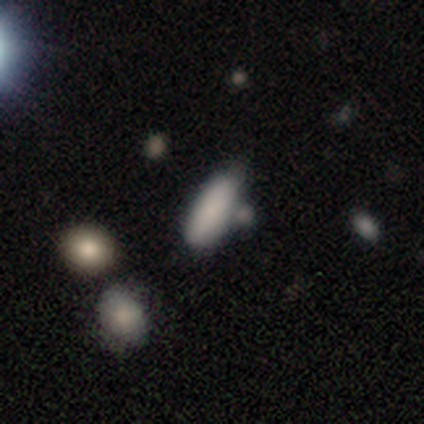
A smooth galaxy with no disk features (80%) that is in between round and cigar-shaped (75%).

Vote fractions:
- Smooth or featured? smooth: 80% / star or artifact: 20% / featured or disk: 0%
- How rounded? in between: 75% / cigar-shaped: 25% / round: 0%
- Merging? none: 50% / minor disturbance: 25% / merger: 25% / major disturbance: 0%